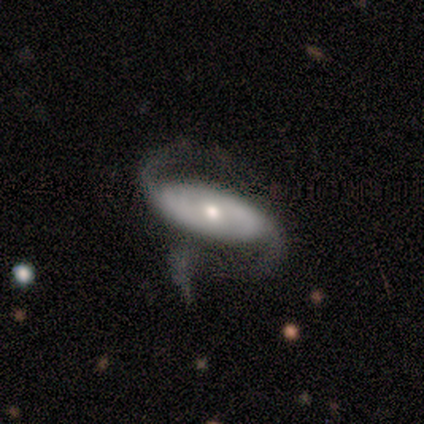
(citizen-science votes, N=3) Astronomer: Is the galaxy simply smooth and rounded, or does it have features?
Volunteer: featured or disk — 100%.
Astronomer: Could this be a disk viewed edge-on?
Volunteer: no — 100%.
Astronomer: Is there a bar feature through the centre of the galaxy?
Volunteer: strong — 33%, tied with weak and no at 33%.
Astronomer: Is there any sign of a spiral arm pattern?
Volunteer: yes — 100%.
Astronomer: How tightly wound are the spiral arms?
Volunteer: medium — 67%.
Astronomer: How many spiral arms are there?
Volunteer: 2 — 67%.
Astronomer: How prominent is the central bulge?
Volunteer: moderate — 100%.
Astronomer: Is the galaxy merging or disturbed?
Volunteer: none — 67%.